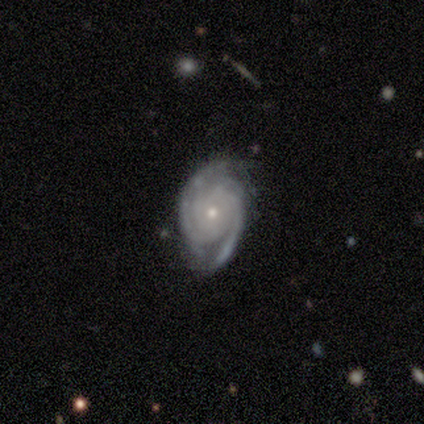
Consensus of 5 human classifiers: Smooth or featured?
  - featured or disk: 80% *
  - smooth: 20%
  - star or artifact: 0%
Edge-on disk?
  - no: 100% *
  - yes: 0%
Bar?
  - no: 75% *
  - weak: 25%
  - strong: 0%
Spiral arms?
  - yes: 100% *
  - no: 0%
Spiral winding?
  - tight: 100% *
  - medium: 0%
  - loose: 0%
Spiral arm count?
  - 2: 50% * (tied)
  - can't tell: 50% * (tied)
  - 1: 0%
  - 3: 0%
  - 4: 0%
  - more than 4: 0%
Bulge size?
  - moderate: 50% * (tied)
  - small: 50% * (tied)
  - dominant: 0%
  - large: 0%
  - none: 0%
Merging?
  - none: 60% *
  - minor disturbance: 40%
  - major disturbance: 0%
  - merger: 0%